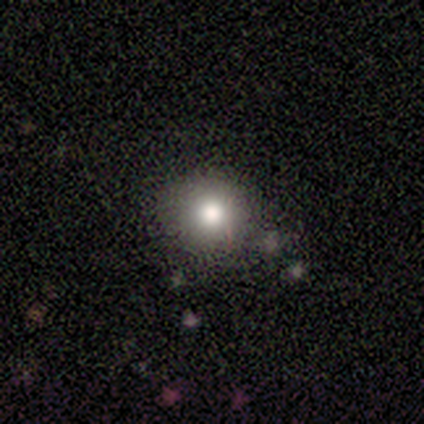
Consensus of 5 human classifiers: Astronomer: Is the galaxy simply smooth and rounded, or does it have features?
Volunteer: smooth — 60%.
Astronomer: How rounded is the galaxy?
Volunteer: round — 100%.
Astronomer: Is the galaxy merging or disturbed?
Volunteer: none — 100%.